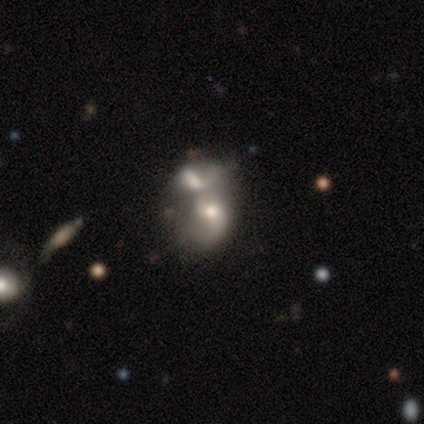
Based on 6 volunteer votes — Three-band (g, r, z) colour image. It shows a featured or disk galaxy (50%) with no bar (100%), loose (100%) spiral arms (67%) and a moderate central bulge (67%). Merging: major disturbance (40%, tied with merger).